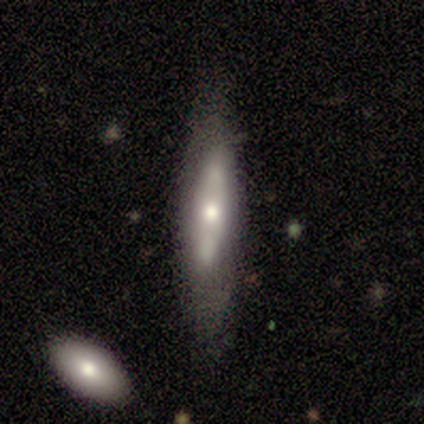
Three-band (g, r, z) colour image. It shows a featured or disk galaxy (60%) with no bar (67%), no spiral arms (67%) and a moderate central bulge (67%). Merging: none (80%).